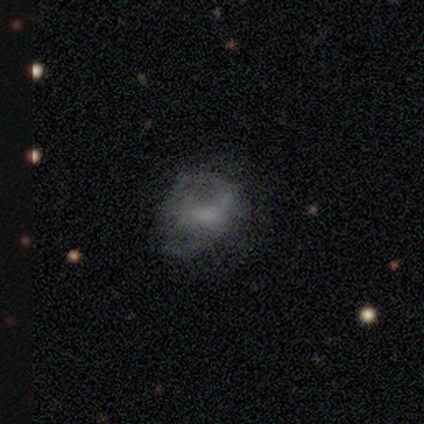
Morphology: type=featured or disk (52%); edge-on=no (100%); bar=no (57%); spiral arms=no (57%); bulge=none (43%); merging=major disturbance (28%).